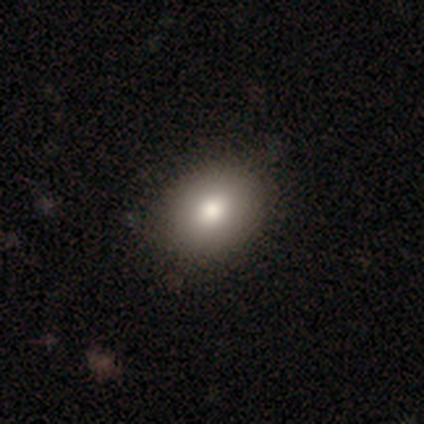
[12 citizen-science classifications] smooth 83%, featured or disk 8%, star or artifact 8%. Down the decision tree: how rounded — in between (90%); merging — none (100%).